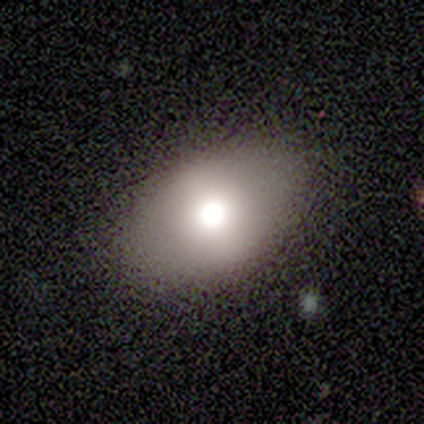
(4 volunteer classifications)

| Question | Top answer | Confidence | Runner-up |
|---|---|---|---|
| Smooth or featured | smooth | 100% | — |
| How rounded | in between | 75% | round (25%) |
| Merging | none | 100% | — |